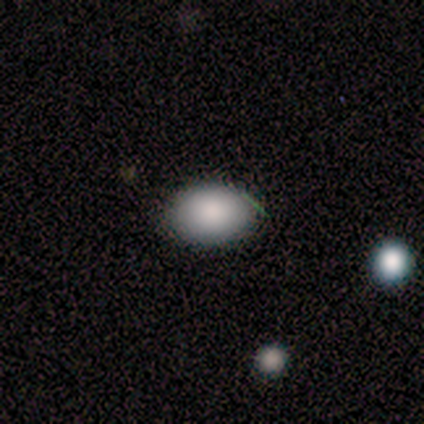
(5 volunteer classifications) Smooth or featured? 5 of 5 (100%) said smooth. How rounded? 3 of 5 (60%) said in between. Merging? 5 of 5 (100%) said none.